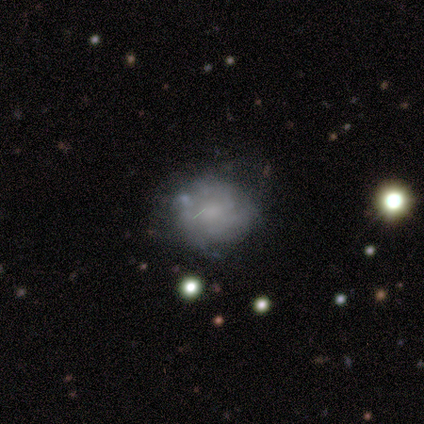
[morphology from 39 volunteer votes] type=featured or disk (64%); edge-on=no (100%); bar=no (88%); spiral arms=no (52%); bulge=none (48%); merging=none (50%).